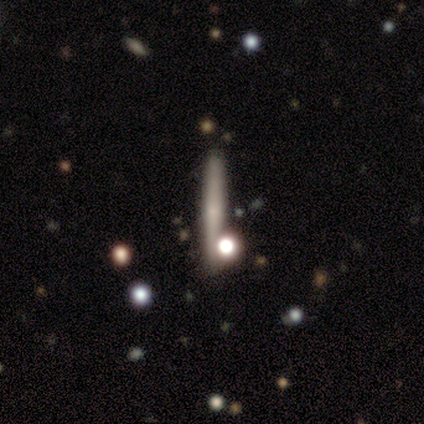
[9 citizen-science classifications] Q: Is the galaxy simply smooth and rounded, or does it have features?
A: smooth — 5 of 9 (56%).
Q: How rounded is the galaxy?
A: cigar-shaped — 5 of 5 (100%).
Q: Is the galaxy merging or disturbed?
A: none — 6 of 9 (67%).